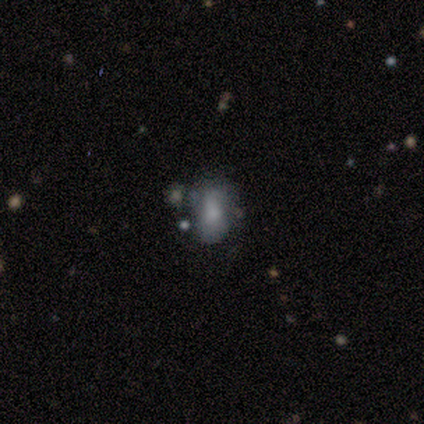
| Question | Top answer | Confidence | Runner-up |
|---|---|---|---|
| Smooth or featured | smooth | 67% | featured or disk (33%) |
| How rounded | in between | 100% | — |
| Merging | none | 67% | minor disturbance (33%) |